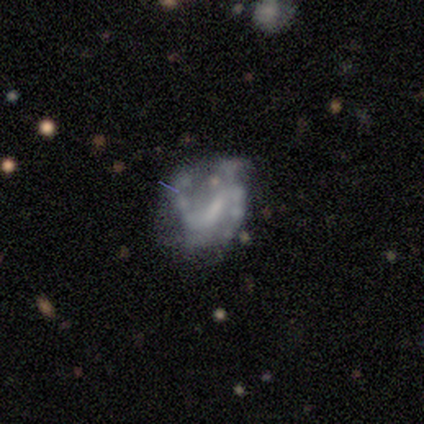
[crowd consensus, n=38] Smooth or featured? featured or disk (68%)
Edge-on disk? no (100%)
Bar? weak (42%)
Spiral arms? yes (58%)
Spiral winding? medium (53%)
Spiral arm count? 2 (67%)
Bulge size? none (38%)
Merging? none (37%)